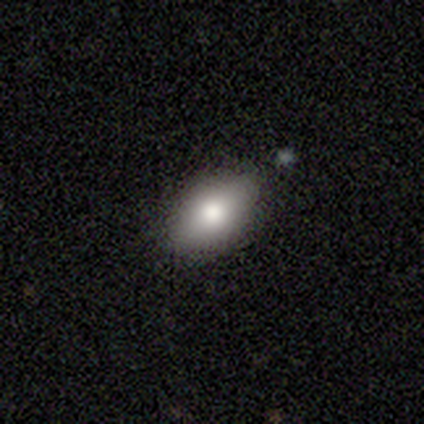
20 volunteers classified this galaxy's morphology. type=smooth (85%); roundness=in between (88%); merging=none (79%).